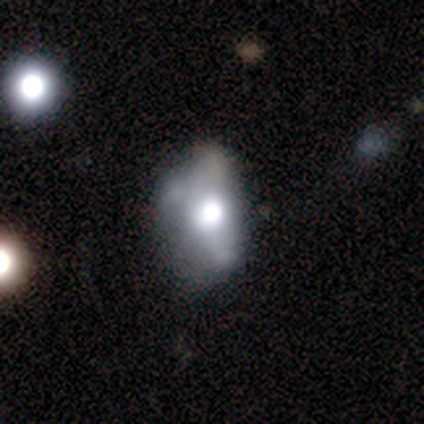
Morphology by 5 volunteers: Smooth or featured? smooth (40%, tied with featured or disk)
How rounded? round (50%, tied with in between)
Merging? none (50%, tied with minor disturbance)